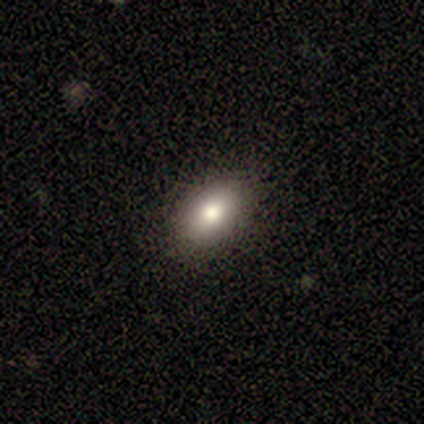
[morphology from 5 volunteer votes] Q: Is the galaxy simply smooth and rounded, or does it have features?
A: smooth — 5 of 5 (100%).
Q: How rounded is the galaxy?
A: in between — 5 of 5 (100%).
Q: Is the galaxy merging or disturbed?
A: none — 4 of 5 (80%).